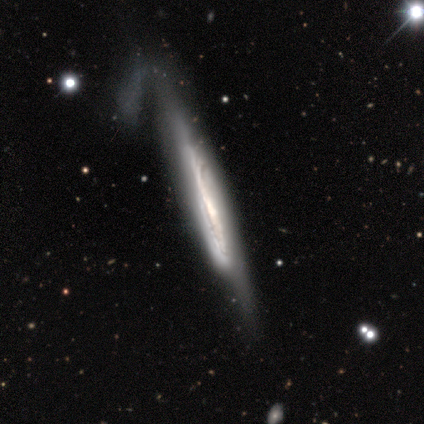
This appears to be a featured or disk galaxy (82%) viewed edge-on (86%) with no central bulge (58%). Merging: none (41%).